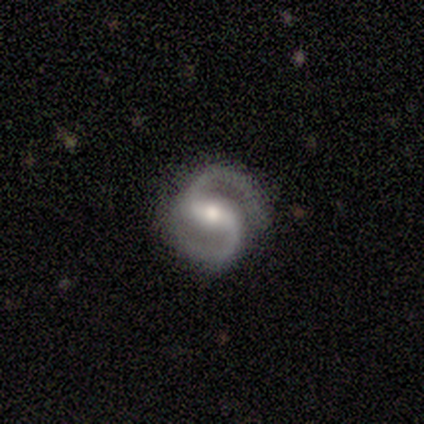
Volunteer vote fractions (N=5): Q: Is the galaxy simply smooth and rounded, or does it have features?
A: featured or disk — 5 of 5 (100%).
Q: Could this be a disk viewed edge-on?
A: no — 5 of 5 (100%).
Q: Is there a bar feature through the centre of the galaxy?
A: no — 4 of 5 (80%).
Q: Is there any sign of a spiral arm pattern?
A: yes — 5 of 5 (100%).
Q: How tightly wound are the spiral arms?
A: medium — 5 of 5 (100%).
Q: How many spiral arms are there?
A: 2 — 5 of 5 (100%).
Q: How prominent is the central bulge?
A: moderate — 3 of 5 (60%).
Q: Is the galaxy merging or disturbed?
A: none — 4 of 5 (80%).